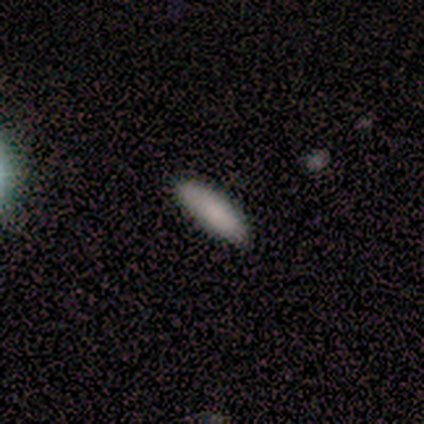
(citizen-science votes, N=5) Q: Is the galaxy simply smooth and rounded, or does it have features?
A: smooth — 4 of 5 (80%).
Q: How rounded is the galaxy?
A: in between — 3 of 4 (75%).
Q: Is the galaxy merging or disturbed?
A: none — 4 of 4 (100%).